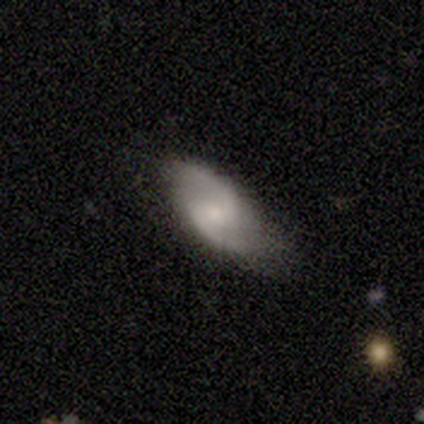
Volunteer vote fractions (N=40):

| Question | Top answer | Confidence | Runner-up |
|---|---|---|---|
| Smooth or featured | featured or disk | 78% | smooth (18%) |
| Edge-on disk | no | 100% | — |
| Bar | weak | 55% | no (32%) |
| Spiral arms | yes | 100% | — |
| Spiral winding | medium | 48% | tied: loose (48%) |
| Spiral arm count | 2 | 100% | — |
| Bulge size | small | 48% | moderate (32%) |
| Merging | none | 82% | minor disturbance (11%) |